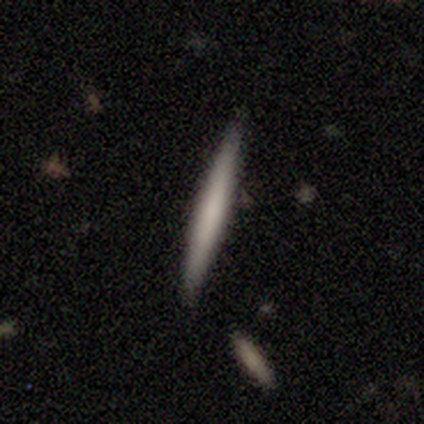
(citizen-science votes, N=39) Smooth or featured?
  - smooth: 46% *
  - featured or disk: 36%
  - star or artifact: 18%
How rounded?
  - cigar-shaped: 100% *
  - round: 0%
  - in between: 0%
Merging?
  - none: 91% *
  - minor disturbance: 6%
  - major disturbance: 3%
  - merger: 0%